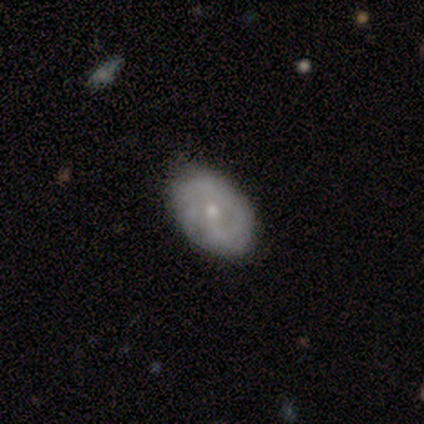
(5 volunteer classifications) This appears to be a featured or disk galaxy (60%) with no bar (67%), 1 (50%, tied with 2) tight (50%, tied with loose) spiral arms (67%) and a small central bulge (100%). Merging: none (100%).